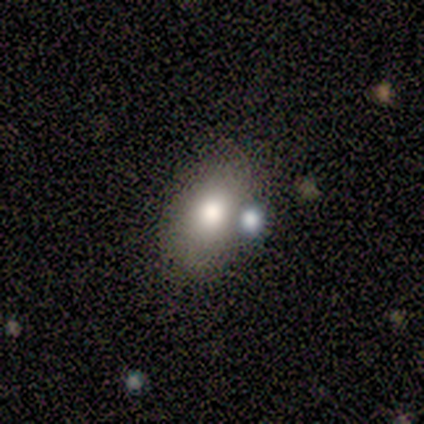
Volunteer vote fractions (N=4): smooth 100%, featured or disk 0%, star or artifact 0%. Down the decision tree: how rounded — in between (100%); merging — none (75%).